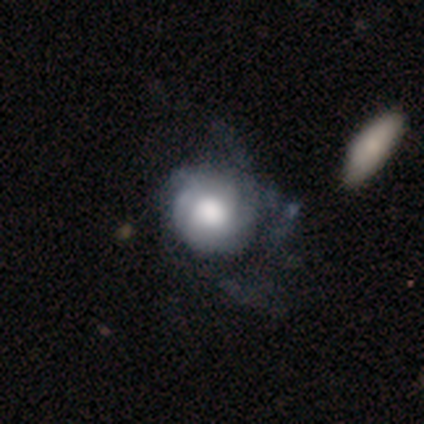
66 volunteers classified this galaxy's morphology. Smooth or featured? 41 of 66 (62%) said featured or disk. Edge-on disk? 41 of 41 (100%) said no. Bar? 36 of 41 (88%) said no. Spiral arms? 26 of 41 (63%) said yes. Spiral winding? 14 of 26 (54%) said tight. Spiral arm count? 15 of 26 (58%) said can't tell. Bulge size? 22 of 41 (54%) said large. Merging? 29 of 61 (48%) said major disturbance.